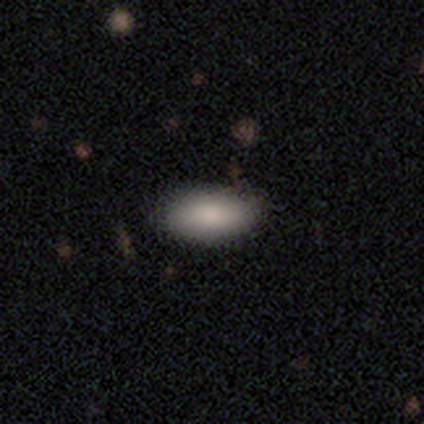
Volunteers were most divided on "smooth or featured": smooth: 60%, featured or disk: 20%, star or artifact: 20%. More confident: how rounded — in between (100%); merging — none (100%).